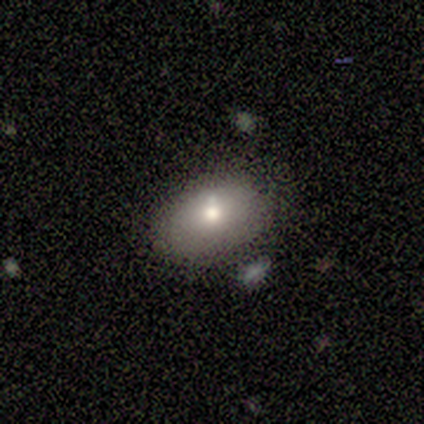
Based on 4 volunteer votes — Smooth or featured: smooth — 100%
How rounded: in between — 75% (round — 25%)
Merging: none — 75% (major disturbance — 25%)